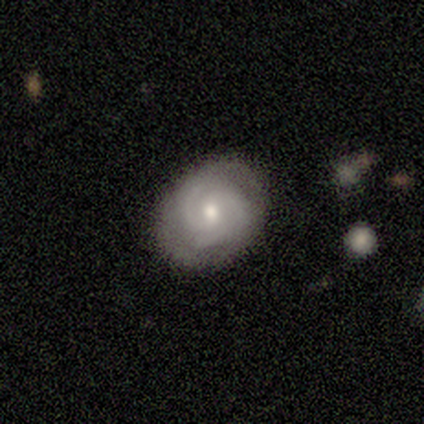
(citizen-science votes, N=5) featured or disk 80%, smooth 20%, star or artifact 0%. Down the decision tree: edge-on disk — no (100%); bar — no (100%); spiral arms — yes (100%); spiral arm count — 2 (75%); spiral winding — tight (100%); bulge size — moderate (50%, tied with small); merging — none (80%).